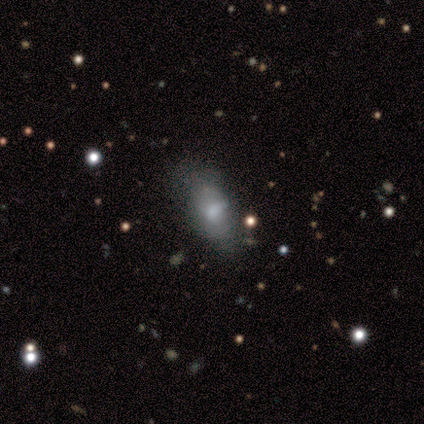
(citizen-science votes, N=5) smooth 60%, featured or disk 40%, star or artifact 0%. Down the decision tree: how rounded — in between (100%); merging — none (60%).